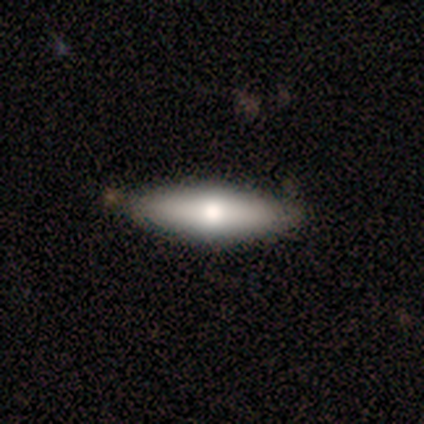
This is possibly a smooth galaxy (52%). How rounded: likely cigar-shaped (62%). Merging: clearly none (80%).